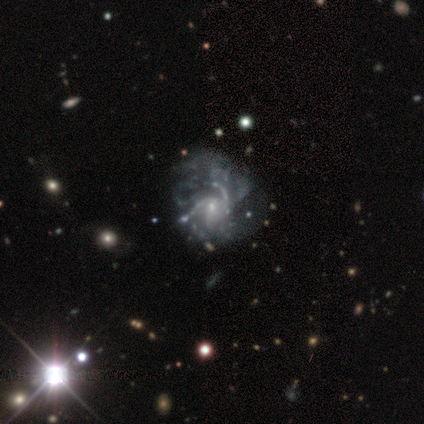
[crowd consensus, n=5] This is likely a featured or disk galaxy (60%). It is clearly not viewed edge-on (100%). Bar: likely weak (67%). Spiral arm pattern: clearly yes (100%). Spiral arm count: marginally 2 (33%, tied with 3 and can't tell). Spiral winding: likely tight (67%). Central bulge: clearly small (100%). Merging: possibly minor disturbance (50%, tied with major disturbance).